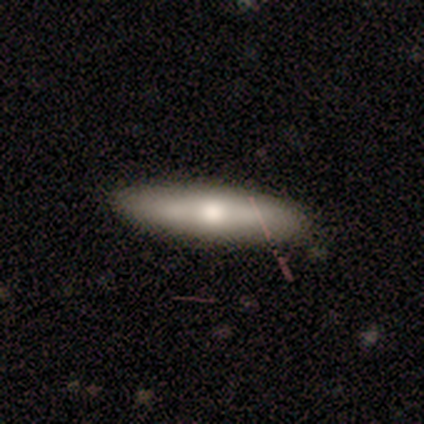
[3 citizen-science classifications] smooth-or-featured: smooth: 100% | featured or disk: 0% | star or artifact: 0%
  how-rounded: cigar-shaped: 67% | in between: 33% | round: 0%
  merging: none: 100% | minor disturbance: 0% | major disturbance: 0% | merger: 0%